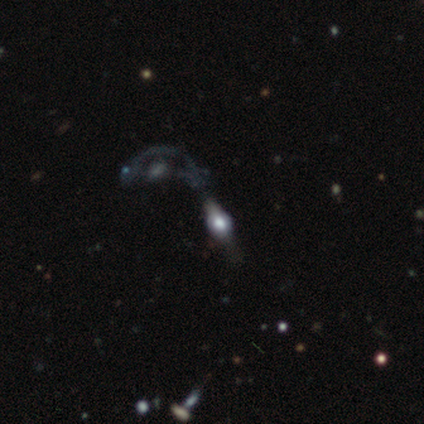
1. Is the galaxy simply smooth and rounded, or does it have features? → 54% featured or disk, 30% smooth, 16% star or artifact.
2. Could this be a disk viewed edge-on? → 65% yes, 35% no.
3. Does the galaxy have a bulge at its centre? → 100% rounded, 0% boxy, 0% none.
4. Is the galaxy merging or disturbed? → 39% major disturbance, 32% merger, 23% none, 6% minor disturbance.